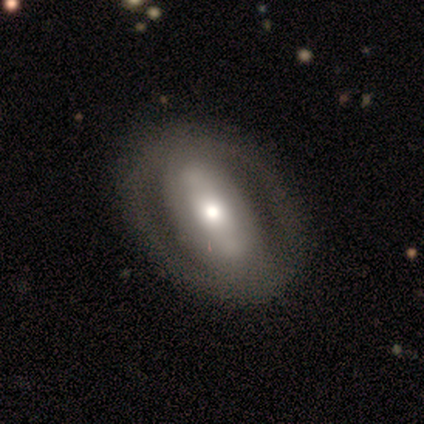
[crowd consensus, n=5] A smooth galaxy with no disk features (40%, tied with featured or disk) that is in between round and cigar-shaped (50%, tied with cigar-shaped).

Vote fractions:
- Smooth or featured? smooth: 40% (tied) / featured or disk: 40% (tied) / star or artifact: 20%
- How rounded? in between: 50% (tied) / cigar-shaped: 50% (tied) / round: 0%
- Merging? none: 75% / minor disturbance: 25% / major disturbance: 0% / merger: 0%